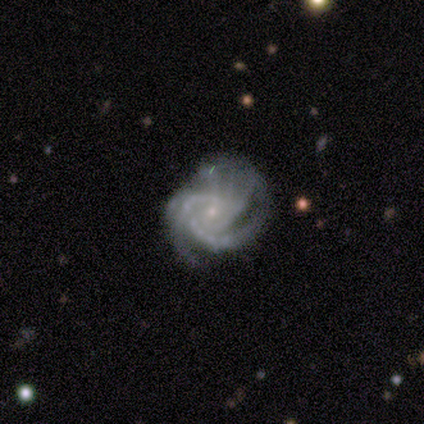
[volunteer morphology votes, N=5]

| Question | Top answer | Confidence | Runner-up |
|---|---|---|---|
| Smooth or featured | featured or disk | 100% | — |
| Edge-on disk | no | 100% | — |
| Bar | no | 100% | — |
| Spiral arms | yes | 100% | — |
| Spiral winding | medium | 60% | tight (40%) |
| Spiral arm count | more than 4 | 40% | tied: can't tell (40%) |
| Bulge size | small | 80% | moderate (20%) |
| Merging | minor disturbance | 40% | none (20%) |